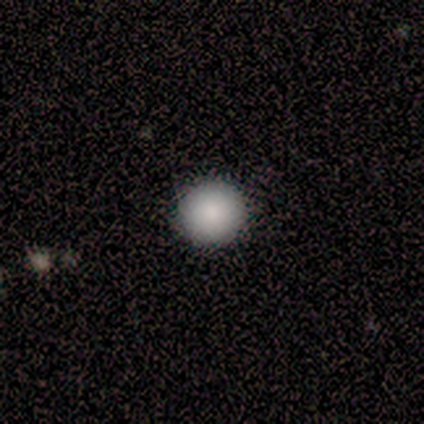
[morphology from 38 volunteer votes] Overall: smooth (92%). How rounded: round (100%). Merging: none (97%).